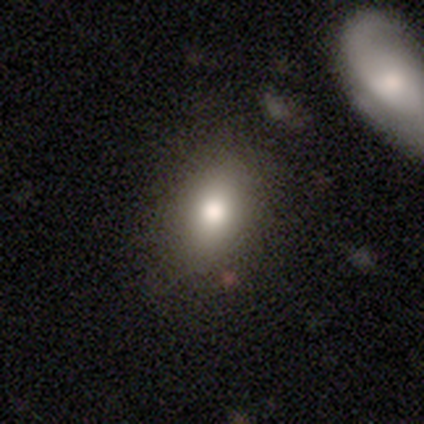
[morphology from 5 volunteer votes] Smooth or featured: smooth — 80% (star or artifact — 20%)
How rounded: in between — 75% (round — 25%)
Merging: none — 100%